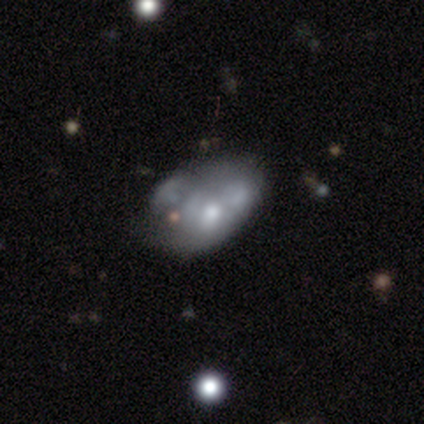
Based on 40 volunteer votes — smooth_or_featured: featured or disk (p=0.78) [alt: smooth p=0.20]
disk_edge_on: no (p=0.97) [alt: yes p=0.03]
bar: no (p=0.83) [alt: strong p=0.10]
has_spiral_arms: no (p=1.00)
bulge_size: moderate (p=0.50) [alt: small p=0.30]
merging: merger (p=0.28) [alt: major disturbance p=0.26]